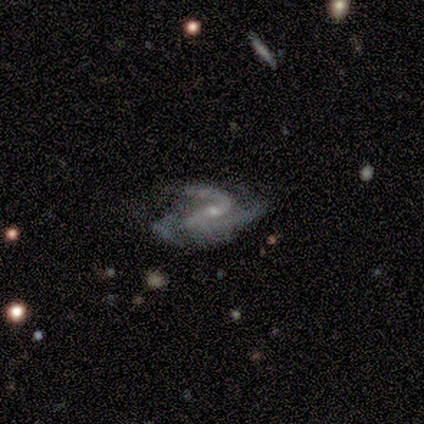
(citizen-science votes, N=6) Q: Smooth or featured?
A: featured or disk (100%)
Q: Edge-on disk?
A: no (100%)
Q: Bar?
A: no (50%); runner-up: strong (33%)
Q: Spiral arms?
A: yes (100%)
Q: Spiral winding?
A: medium (50%); tied with: loose (50%)
Q: Spiral arm count?
A: 3 (50%); runner-up: 2 (33%)
Q: Bulge size?
A: small (67%); runner-up: moderate (33%)
Q: Merging?
A: none (50%); runner-up: minor disturbance (33%)